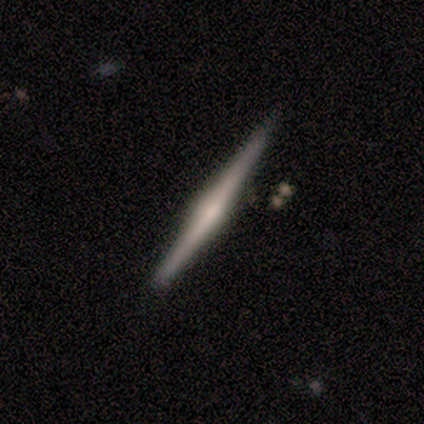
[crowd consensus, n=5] Volunteers were most divided on "edge-on bulge" (3-way tie): boxy: 33%, none: 33%, rounded: 33%. More confident: edge-on disk — yes (100%); smooth or featured — featured or disk (60%); merging — none (60%).